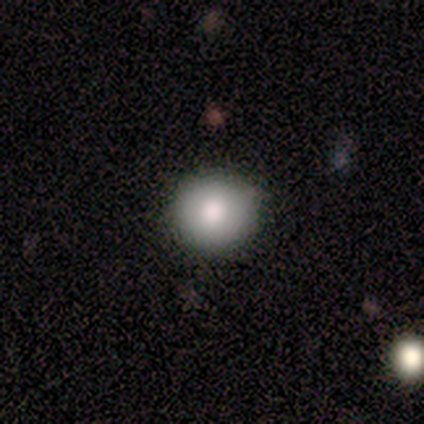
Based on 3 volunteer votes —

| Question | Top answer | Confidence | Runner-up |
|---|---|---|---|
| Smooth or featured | smooth | 67% | star or artifact (33%) |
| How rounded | round | 100% | — |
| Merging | none | 100% | — |